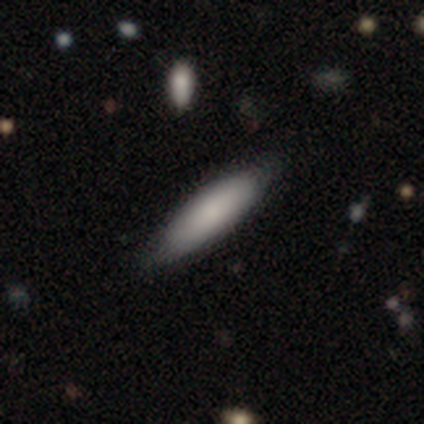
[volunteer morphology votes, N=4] smooth 100%, featured or disk 0%, star or artifact 0%. Down the decision tree: how rounded — in between (75%); merging — none (100%).